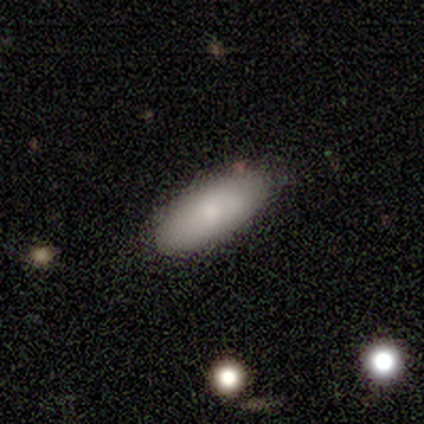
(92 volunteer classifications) This is clearly a smooth galaxy (82%). How rounded: likely in between (79%). Merging: likely none (78%).